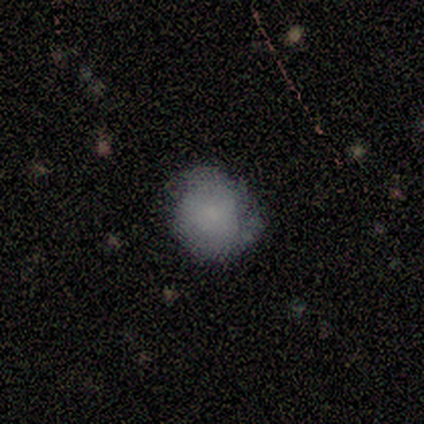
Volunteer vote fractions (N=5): Smooth or featured? 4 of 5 (80%) said smooth. How rounded? 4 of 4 (100%) said round. Merging? 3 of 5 (60%) said none.